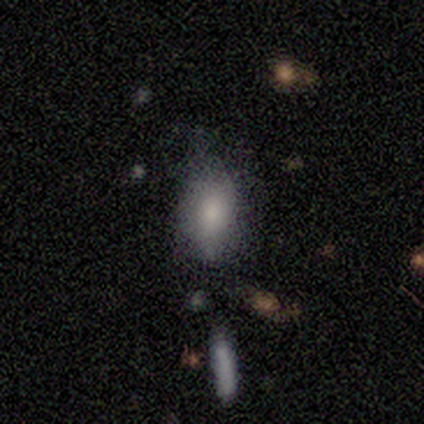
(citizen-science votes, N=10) Volunteers were most divided on "merging": none: 56%, minor disturbance: 44%, major disturbance: 0%, merger: 0%. More confident: how rounded — in between (100%); smooth or featured — smooth (70%).